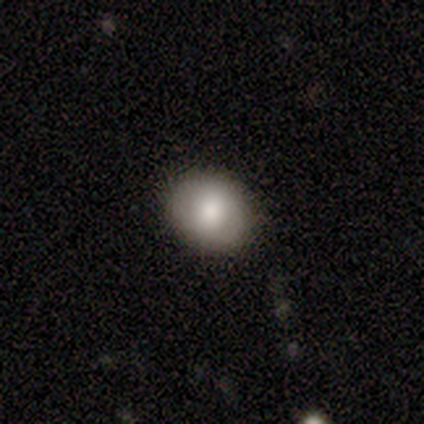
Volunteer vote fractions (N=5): Overall: smooth (80%). How rounded: round (75%). Merging: none (100%).